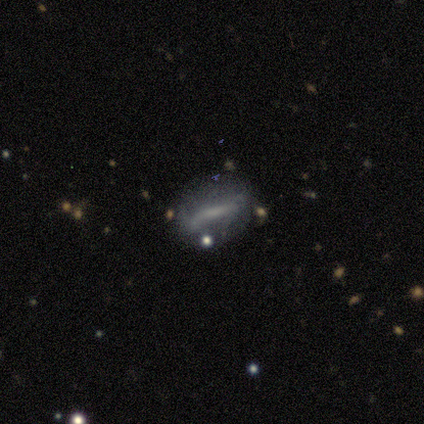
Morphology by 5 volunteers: smooth 40% (tied), featured or disk 40% (tied), star or artifact 20%. Down the decision tree: how rounded — in between (50%, tied with cigar-shaped); merging — none (25%, tied with minor disturbance, major disturbance and merger).